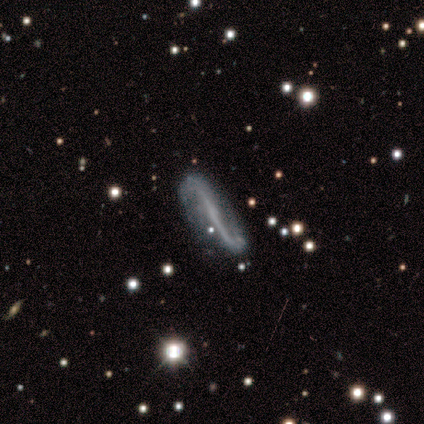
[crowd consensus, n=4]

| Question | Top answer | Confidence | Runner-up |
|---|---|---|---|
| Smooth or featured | featured or disk | 100% | — |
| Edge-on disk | no | 75% | yes (25%) |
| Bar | no | 67% | strong (33%) |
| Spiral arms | yes | 100% | — |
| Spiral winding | loose | 67% | medium (33%) |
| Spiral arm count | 2 | 67% | can't tell (33%) |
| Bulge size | none | 100% | — |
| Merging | none | 100% | — |